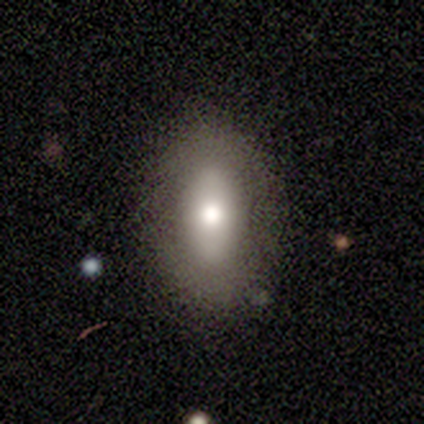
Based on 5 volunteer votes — Overall: smooth (100%). How rounded: in between (100%). Merging: none (100%).